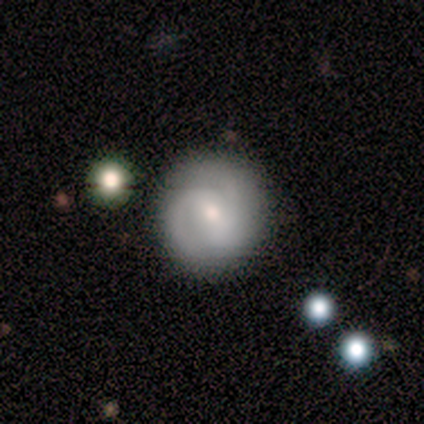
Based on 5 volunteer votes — Overall: featured or disk (80%). Edge-on disk: no (100%). Bar: no (75%). Spiral arms: yes (100%). Spiral arm count: 2 (75%). Spiral winding: tight (75%). Bulge size: moderate (75%). Merging: none (80%).